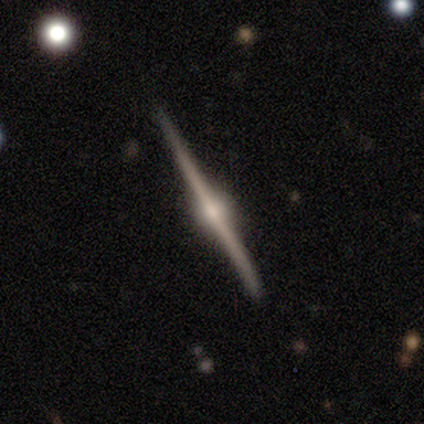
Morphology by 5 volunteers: This is clearly a featured or disk galaxy (100%). It is clearly viewed edge-on (100%). Edge-on bulge: clearly rounded (80%). Merging: clearly none (100%).